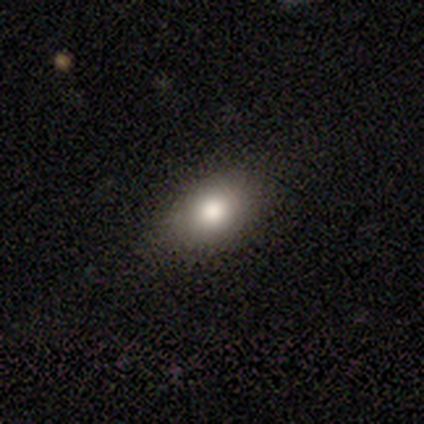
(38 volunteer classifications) smooth 66%, featured or disk 21%, star or artifact 13%. Down the decision tree: how rounded — in between (88%); merging — none (76%).